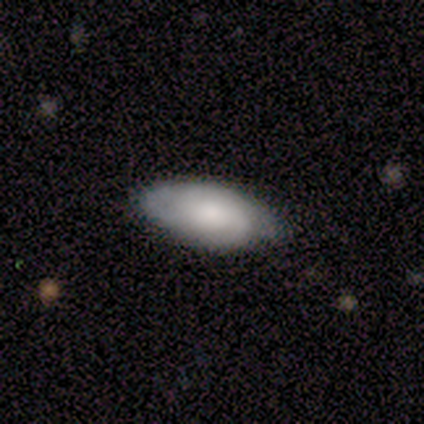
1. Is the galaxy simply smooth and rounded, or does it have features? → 60% featured or disk, 40% smooth, 0% star or artifact.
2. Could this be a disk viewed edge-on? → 100% no, 0% yes.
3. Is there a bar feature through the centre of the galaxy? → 100% no, 0% strong, 0% weak.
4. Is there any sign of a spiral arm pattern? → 100% yes, 0% no.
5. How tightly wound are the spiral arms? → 67% tight, 33% loose, 0% medium.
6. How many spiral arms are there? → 33% 2 (tied), 33% 3 (tied), 33% can't tell (tied), 0% 1, 0% 4, 0% more than 4.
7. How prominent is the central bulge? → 33% moderate (tied), 33% small (tied), 33% none (tied), 0% dominant, 0% large.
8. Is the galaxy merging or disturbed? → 100% none, 0% minor disturbance, 0% major disturbance, 0% merger.